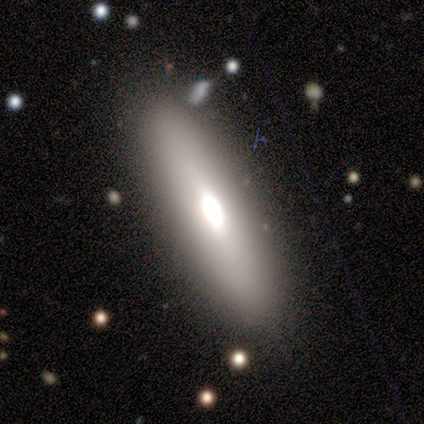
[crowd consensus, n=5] Morphology: type=smooth (60%); roundness=in between (67%); merging=none (60%).